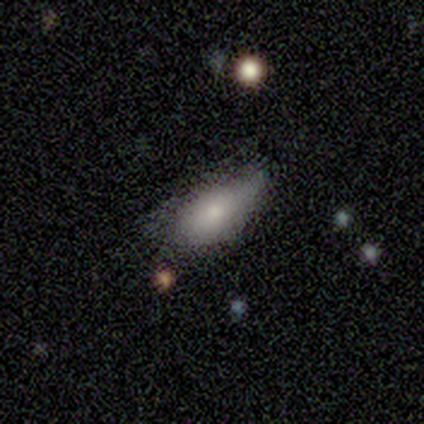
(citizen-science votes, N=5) A smooth galaxy with no disk features (100%) that is in between round and cigar-shaped (100%).

Vote fractions:
- Smooth or featured? smooth: 100% / featured or disk: 0% / star or artifact: 0%
- How rounded? in between: 100% / round: 0% / cigar-shaped: 0%
- Merging? none: 60% / minor disturbance: 20% / major disturbance: 20% / merger: 0%